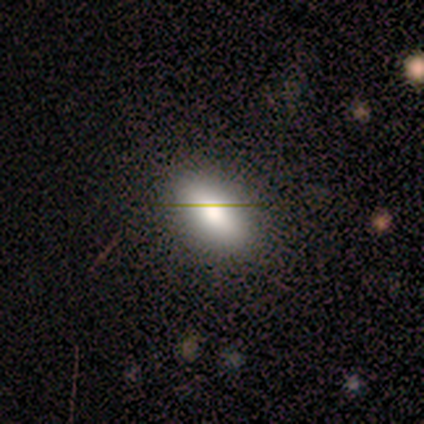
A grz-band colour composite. It shows a smooth galaxy with no disk features (83%) that is in between round and cigar-shaped (100%). Merging: none (100%).